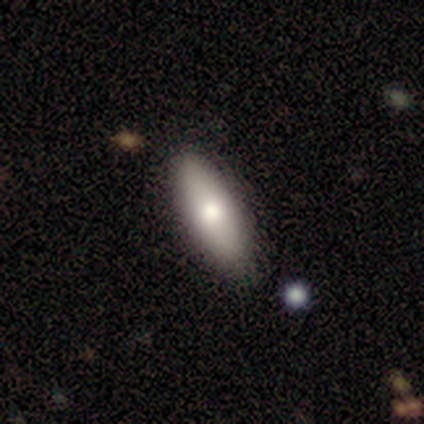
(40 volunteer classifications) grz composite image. It shows a smooth galaxy with no disk features (78%) that is in between round and cigar-shaped (81%). Merging: none (72%).